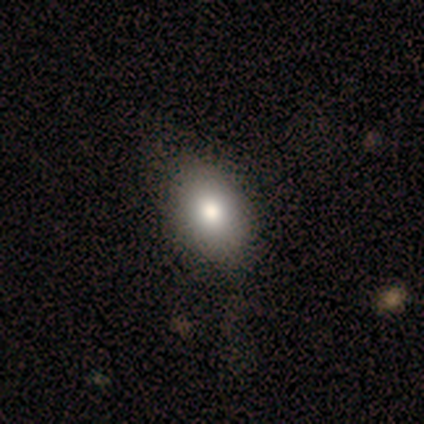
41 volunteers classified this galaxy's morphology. Smooth or featured? 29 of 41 (71%) said smooth. How rounded? 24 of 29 (83%) said in between. Merging? 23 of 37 (62%) said none.